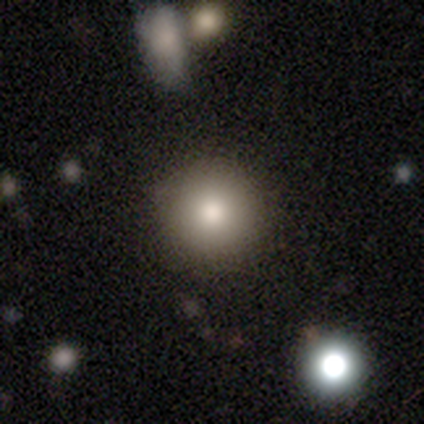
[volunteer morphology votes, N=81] Overall: smooth (78%). How rounded: round (95%). Merging: none (86%).